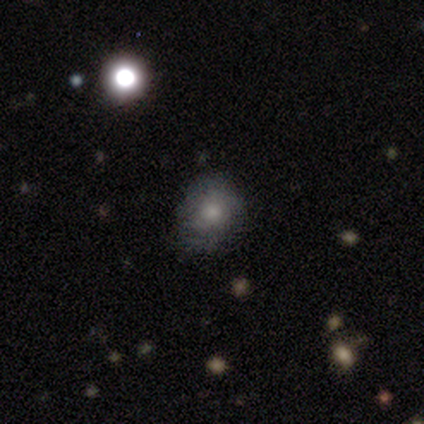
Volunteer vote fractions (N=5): star or artifact 60%, smooth 40%, featured or disk 0%.